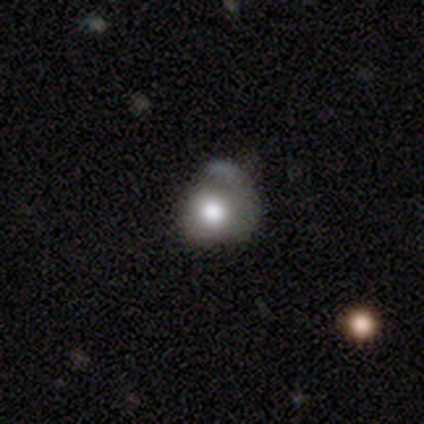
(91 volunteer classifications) This is likely a smooth galaxy (66%). How rounded: likely round (78%). Merging: marginally none (35%).